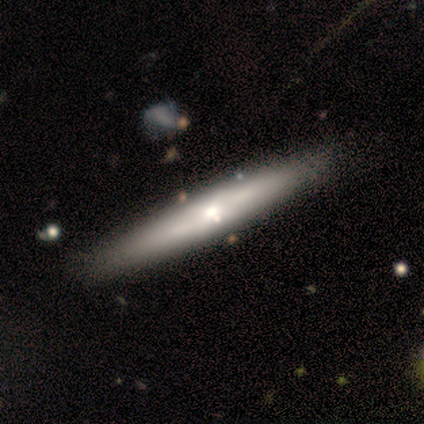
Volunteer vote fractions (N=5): Overall: featured or disk (60%; smooth 20%). Edge-on disk: no (67%; yes 33%). Bar: no (100%). Spiral arms: no (100%). Bulge size: large (50%, tied with moderate). Merging: none (100%).